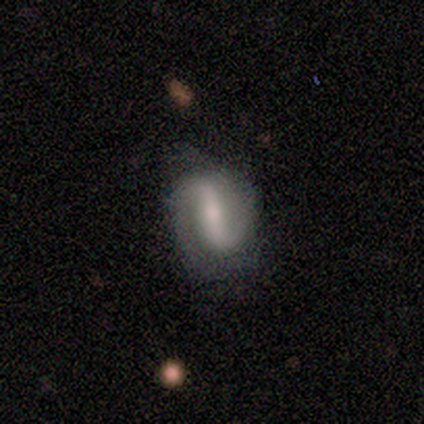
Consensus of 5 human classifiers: Volunteers were most divided on "spiral winding" (2-way tie): medium: 50%, loose: 50%, tight: 0%. More confident: smooth or featured — featured or disk (100%); edge-on disk — no (100%); spiral arms — yes (80%); bulge size — small (80%); merging — none (80%); spiral arm count — 2 (75%); bar — strong (60%).